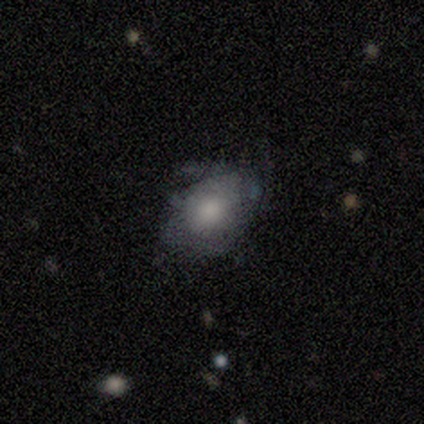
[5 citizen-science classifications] smooth-or-featured: smooth: 60% | featured or disk: 40% | star or artifact: 0%
  how-rounded: round: 67% | in between: 33% | cigar-shaped: 0%
  merging: minor disturbance: 60% | none: 40% | major disturbance: 0% | merger: 0%